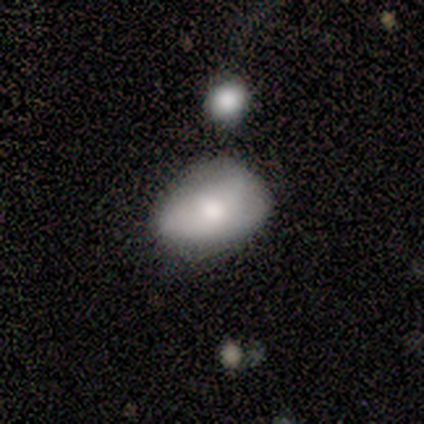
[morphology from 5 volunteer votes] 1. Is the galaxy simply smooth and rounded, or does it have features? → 60% smooth, 40% featured or disk, 0% star or artifact.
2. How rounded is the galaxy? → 100% in between, 0% round, 0% cigar-shaped.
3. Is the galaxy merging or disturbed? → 80% none, 20% minor disturbance, 0% major disturbance, 0% merger.